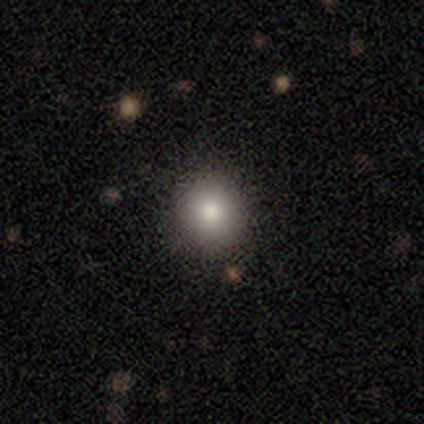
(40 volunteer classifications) Overall: smooth (80%). How rounded: round (91%). Merging: none (91%).